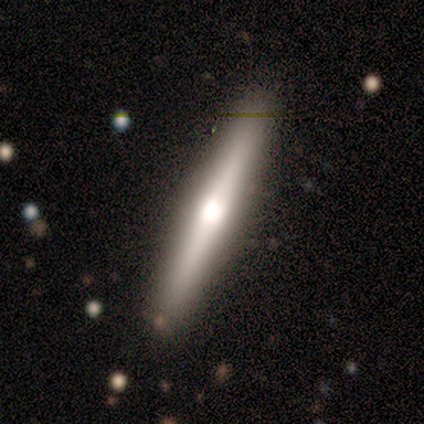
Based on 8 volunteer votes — This appears to be a featured or disk galaxy (62%) viewed edge-on (100%) with a rounded central bulge (100%). Merging: none (88%).